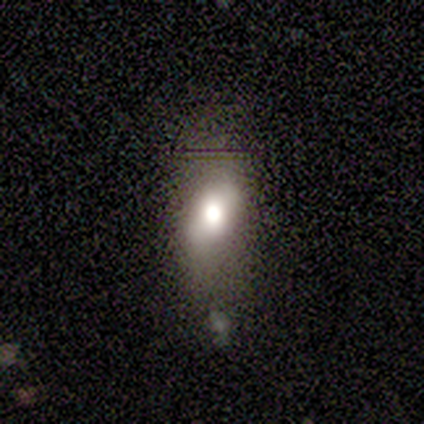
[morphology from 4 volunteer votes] smooth-or-featured: smooth: 50% (tied) | star or artifact: 50% (tied) | featured or disk: 0%
  how-rounded: in between: 100% | round: 0% | cigar-shaped: 0%
  merging: none: 50% (tied) | minor disturbance: 50% (tied) | major disturbance: 0% | merger: 0%